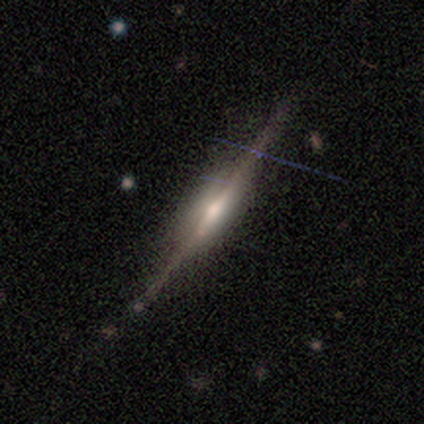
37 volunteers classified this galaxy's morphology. Smooth or featured: featured or disk — 89% (smooth — 5%)
Edge-on disk: yes — 97% (no — 3%)
Edge-on bulge: rounded — 66% (boxy — 31%)
Merging: none — 80% (minor disturbance — 11%)